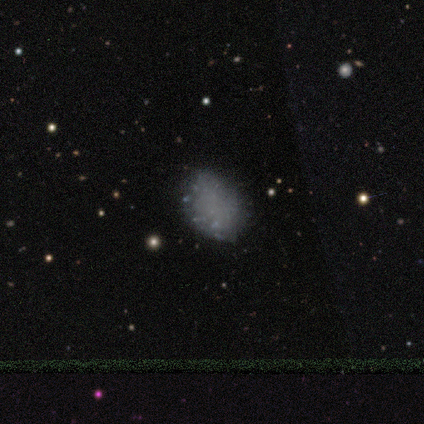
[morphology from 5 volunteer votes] This appears to be a featured or disk galaxy (60%) with no bar (100%), no spiral arms (100%) and no central bulge (100%). Merging: none (80%).